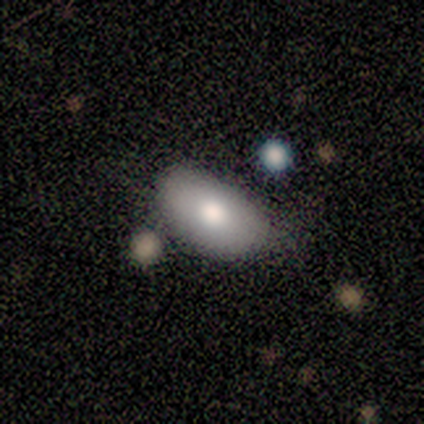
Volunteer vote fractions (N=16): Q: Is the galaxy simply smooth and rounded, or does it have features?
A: smooth — 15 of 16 (94%).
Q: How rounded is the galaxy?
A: in between — 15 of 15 (100%).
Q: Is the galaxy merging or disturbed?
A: none — 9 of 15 (60%).